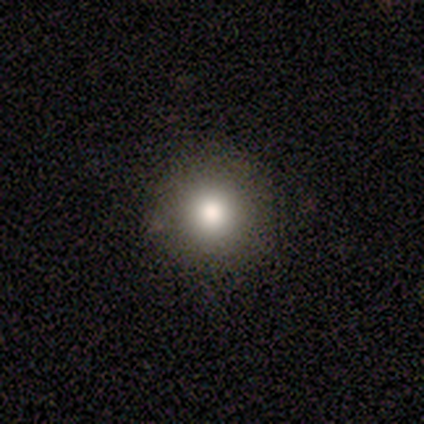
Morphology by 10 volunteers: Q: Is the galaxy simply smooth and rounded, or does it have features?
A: smooth — 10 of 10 (100%).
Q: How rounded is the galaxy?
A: round — 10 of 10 (100%).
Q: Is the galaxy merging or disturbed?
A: none — 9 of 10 (90%).